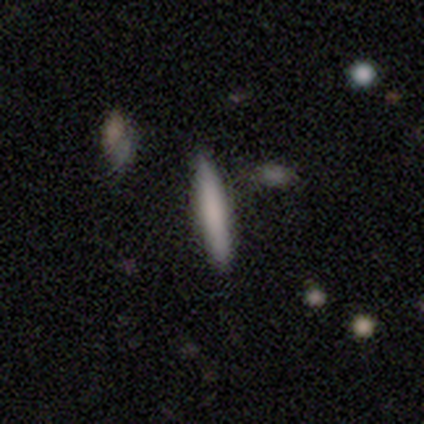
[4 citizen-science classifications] A smooth galaxy with no disk features (100%) that is cigar-shaped (100%). Merging: none (100%).